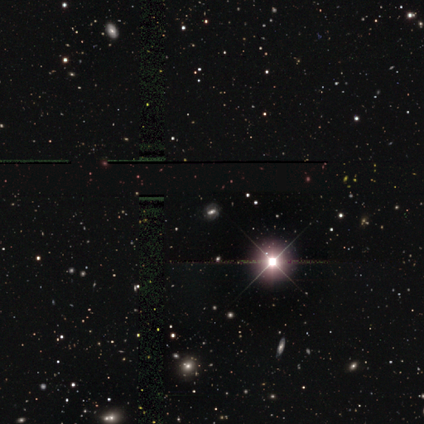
Q: Smooth or featured?
A: star or artifact (63%); runner-up: featured or disk (32%)